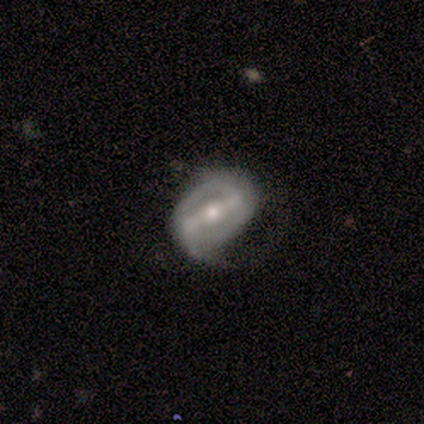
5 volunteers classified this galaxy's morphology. Q: Smooth or featured?
A: featured or disk (80%); runner-up: smooth (20%)
Q: Edge-on disk?
A: yes (50%); tied with: no (50%)
Q: Edge-on bulge?
A: boxy (50%); tied with: rounded (50%)
Q: Merging?
A: none (60%); runner-up: minor disturbance (40%)